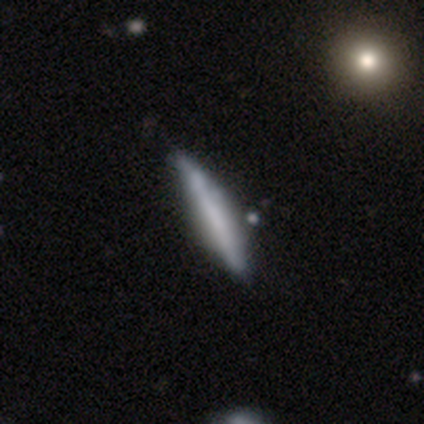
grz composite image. It shows a featured or disk galaxy (71%) viewed edge-on (80%) with no central bulge (75%). Merging: none (71%).